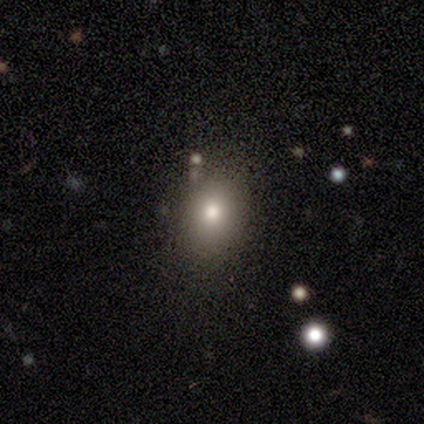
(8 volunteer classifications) smooth_or_featured: smooth (p=0.75) [alt: star or artifact p=0.25]
how_rounded: in between (p=0.83) [alt: round p=0.17]
merging: none (p=1.00)